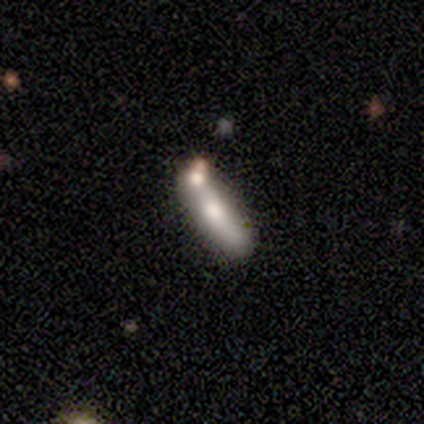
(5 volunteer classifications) featured or disk 80%, smooth 20%, star or artifact 0%. Down the decision tree: edge-on disk — yes (100%); edge-on bulge — rounded (100%); merging — none (80%).